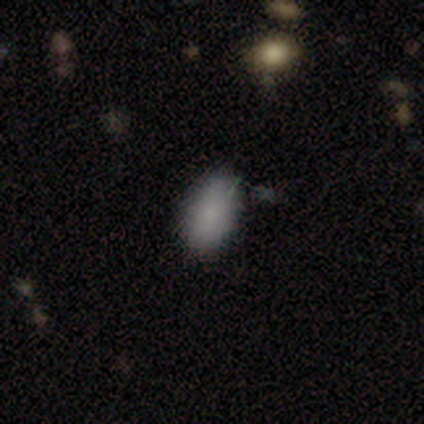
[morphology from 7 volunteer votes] smooth-or-featured: smooth: 100% | featured or disk: 0% | star or artifact: 0%
  how-rounded: in between: 100% | round: 0% | cigar-shaped: 0%
  merging: none: 57% | minor disturbance: 43% | major disturbance: 0% | merger: 0%